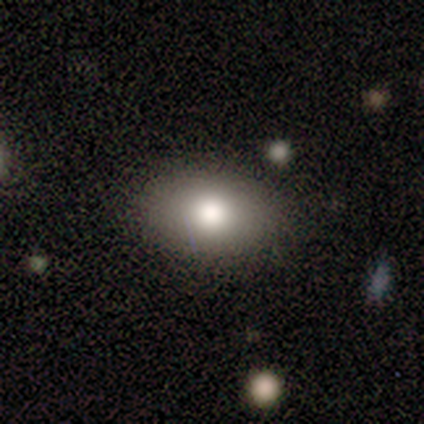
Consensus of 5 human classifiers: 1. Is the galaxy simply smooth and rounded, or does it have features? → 60% smooth, 40% featured or disk, 0% star or artifact.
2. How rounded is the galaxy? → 100% in between, 0% round, 0% cigar-shaped.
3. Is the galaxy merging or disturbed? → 100% none, 0% minor disturbance, 0% major disturbance, 0% merger.